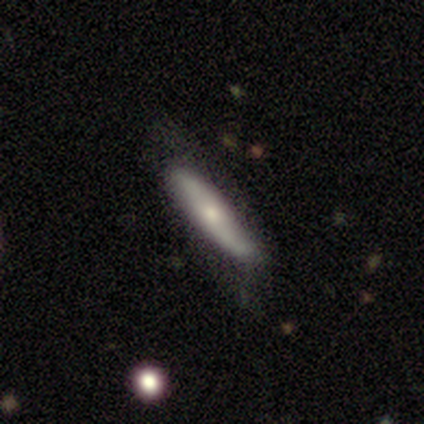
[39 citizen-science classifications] smooth_or_featured: smooth (p=0.62) [alt: featured or disk p=0.36]
how_rounded: cigar-shaped (p=0.88) [alt: in between p=0.12]
merging: none (p=0.63) [alt: minor disturbance p=0.24]